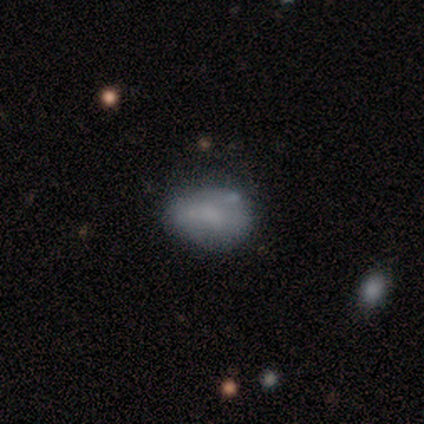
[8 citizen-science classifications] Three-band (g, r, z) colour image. It shows a smooth galaxy with no disk features (75%) that is in between round and cigar-shaped (83%). Merging: minor disturbance (43%).